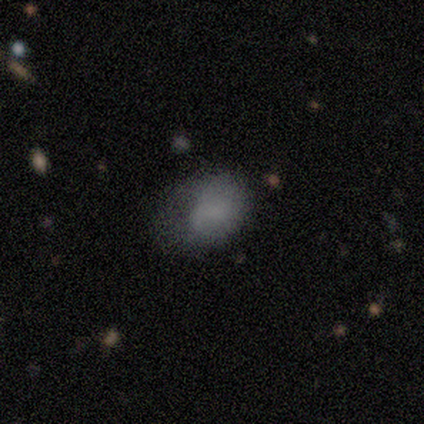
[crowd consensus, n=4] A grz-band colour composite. It shows a smooth galaxy with no disk features (75%) that is in between round and cigar-shaped (100%). Merging: minor disturbance (50%).